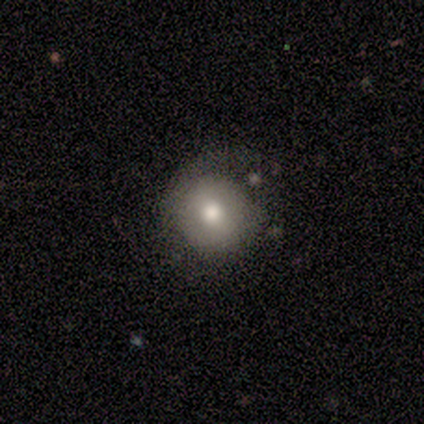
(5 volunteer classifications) smooth 40% (tied), star or artifact 40% (tied), featured or disk 20%. Down the decision tree: how rounded — round (100%); merging — none (100%).